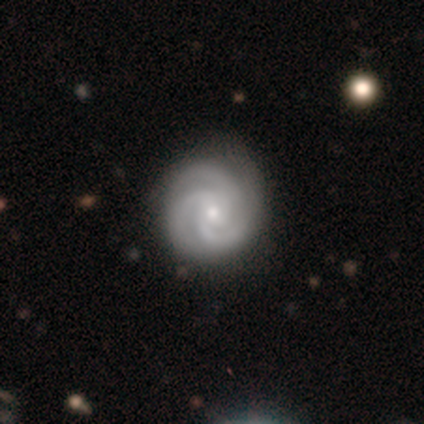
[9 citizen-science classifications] Smooth or featured? 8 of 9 (89%) said featured or disk. Edge-on disk? 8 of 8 (100%) said no. Bar? 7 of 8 (88%) said no. Spiral arms? 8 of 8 (100%) said yes. Spiral winding? 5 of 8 (62%) said tight. Spiral arm count? 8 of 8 (100%) said 3. Bulge size? 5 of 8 (62%) said small. Merging? 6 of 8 (75%) said none.